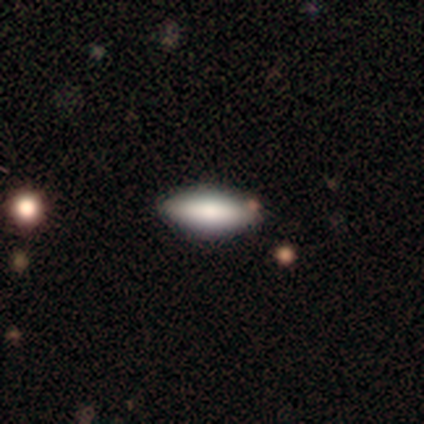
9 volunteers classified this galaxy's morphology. Smooth or featured?
  - smooth: 78% *
  - featured or disk: 22%
  - star or artifact: 0%
How rounded?
  - in between: 71% *
  - cigar-shaped: 29%
  - round: 0%
Merging?
  - none: 78% *
  - minor disturbance: 11%
  - merger: 11%
  - major disturbance: 0%